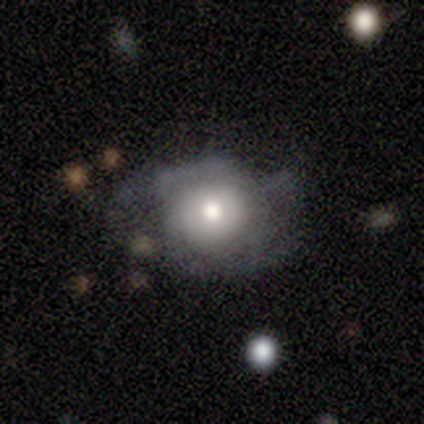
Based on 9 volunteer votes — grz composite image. It shows a featured or disk galaxy (44%) with no bar (100%), medium (67%) spiral arms (75%) and a moderate central bulge (50%). Merging: minor disturbance (71%).